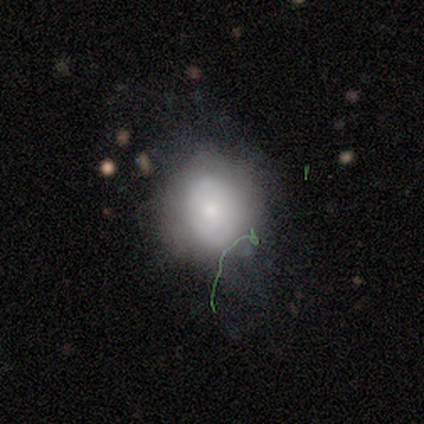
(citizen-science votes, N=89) Volunteers were most divided on "how rounded": round: 53%, in between: 47%, cigar-shaped: 0%. More confident: smooth or featured — smooth (60%); merging — none (53%).